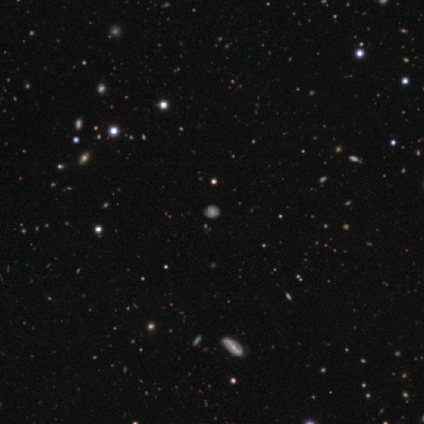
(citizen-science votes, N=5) This appears to be a star or artifact, not a galaxy (60%).